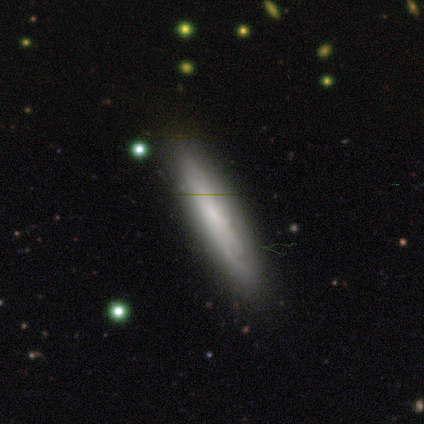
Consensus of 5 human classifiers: This is likely a smooth galaxy (60%). How rounded: clearly cigar-shaped (100%). Merging: clearly none (100%).